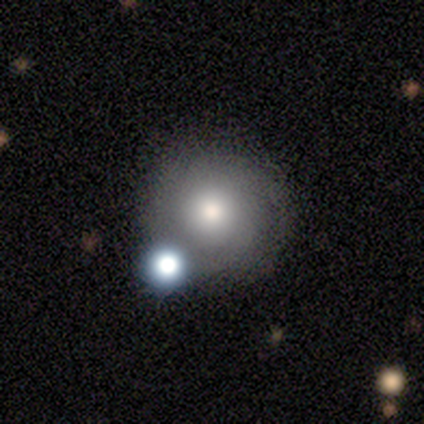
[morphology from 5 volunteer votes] type=featured or disk (80%); edge-on=no (100%); bar=no (100%); spiral arms=no (75%); bulge=moderate (50%); merging=none (80%).